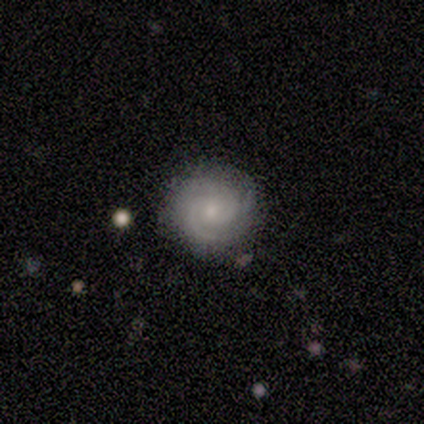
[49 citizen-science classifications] A featured or disk galaxy (84%) with no bar (73%), 2 (54%) tight (69%) spiral arms (95%) and a small central bulge (61%).

Vote fractions:
- Smooth or featured? featured or disk: 84% / smooth: 10% / star or artifact: 6%
- Edge-on disk? no: 100% / yes: 0%
- Bar? no: 73% / weak: 24% / strong: 2%
- Spiral arms? yes: 95% / no: 5%
- Spiral winding? tight: 69% / medium: 28% / loose: 3%
- Spiral arm count? 2: 54% / 3: 33% / can't tell: 13% / 1: 0% / 4: 0% / more than 4: 0%
- Bulge size? small: 61% / moderate: 32% / none: 5% / large: 2% / dominant: 0%
- Merging? none: 91% / minor disturbance: 4% / major disturbance: 2% / merger: 2%